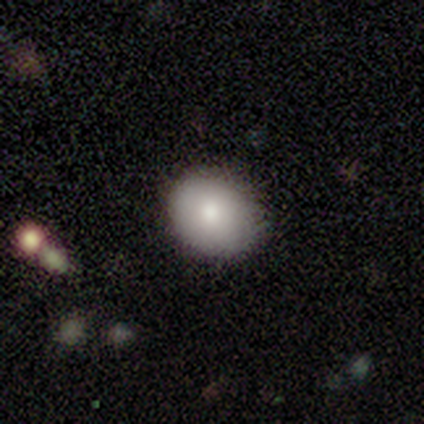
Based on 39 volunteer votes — Morphology: type=smooth (87%); roundness=round (56%); merging=none (84%).